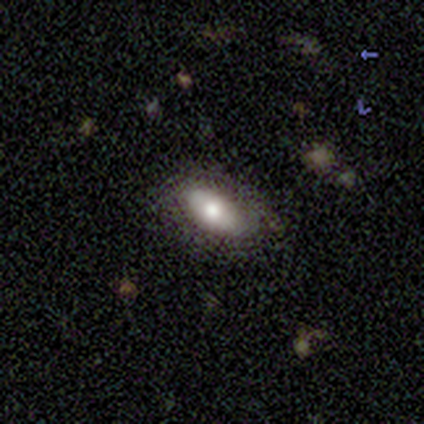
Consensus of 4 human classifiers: A smooth galaxy with no disk features (75%) that is in between round and cigar-shaped (67%). Merging: none (100%).